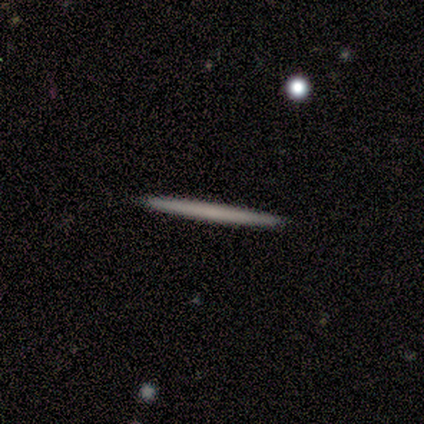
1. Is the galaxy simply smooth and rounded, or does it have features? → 75% featured or disk, 25% smooth, 0% star or artifact.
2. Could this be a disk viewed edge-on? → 100% yes, 0% no.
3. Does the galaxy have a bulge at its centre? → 100% none, 0% boxy, 0% rounded.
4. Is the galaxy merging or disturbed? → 100% none, 0% minor disturbance, 0% major disturbance, 0% merger.